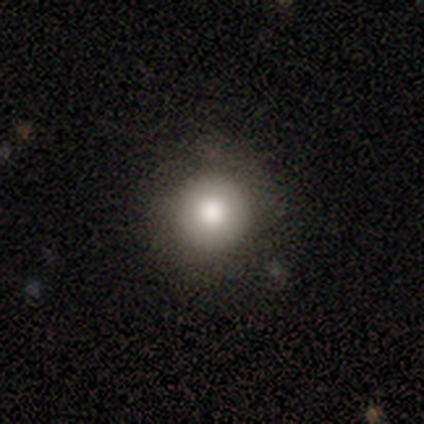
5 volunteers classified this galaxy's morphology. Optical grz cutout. It shows a smooth galaxy with no disk features (80%) that is round (100%). Merging: none (50%, tied with minor disturbance).